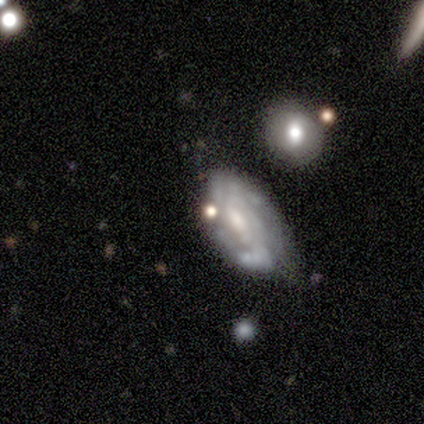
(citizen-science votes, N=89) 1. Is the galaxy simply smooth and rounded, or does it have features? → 67% featured or disk, 21% smooth, 11% star or artifact.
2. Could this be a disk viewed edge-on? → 95% no, 5% yes.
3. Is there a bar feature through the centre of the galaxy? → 42% no, 39% weak, 19% strong.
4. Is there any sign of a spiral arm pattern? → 79% yes, 21% no.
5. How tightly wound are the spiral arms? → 38% medium, 36% tight, 27% loose.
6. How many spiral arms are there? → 42% 2, 29% can't tell, 11% 3, 7% 1, 7% 4, 4% more than 4.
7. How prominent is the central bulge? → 42% moderate, 40% small, 14% none, 2% dominant, 2% large.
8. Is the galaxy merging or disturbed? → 59% none, 25% minor disturbance, 10% major disturbance, 5% merger.